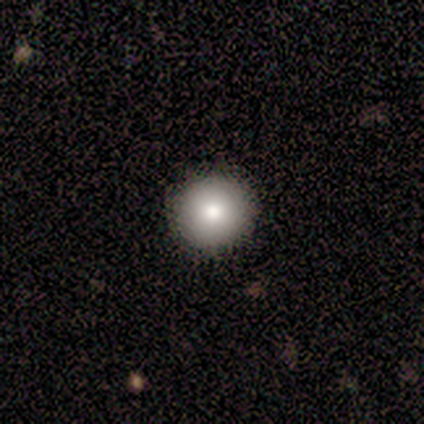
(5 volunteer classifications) Smooth or featured: smooth — 60% (featured or disk — 20%)
How rounded: round — 100%
Merging: none — 75% (minor disturbance — 25%)